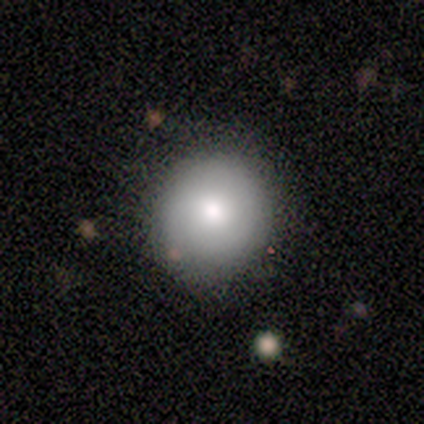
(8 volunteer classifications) This appears to be a smooth galaxy with no disk features (88%) that is round (100%). Merging: none (88%).